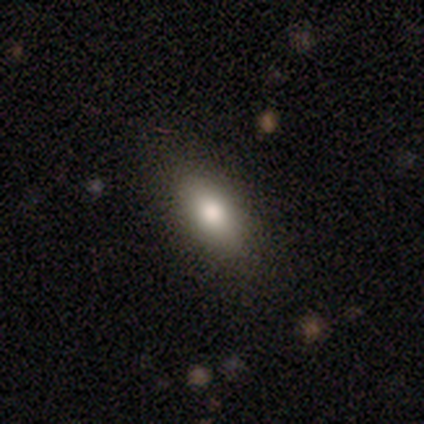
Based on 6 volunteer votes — Volunteers were most divided on "smooth or featured": smooth: 83%, featured or disk: 17%, star or artifact: 0%. More confident: how rounded — in between (100%); merging — none (100%).